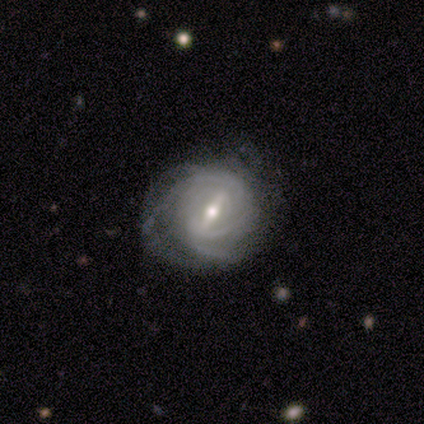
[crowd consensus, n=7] Volunteers were most divided on "spiral arm count" (4-way tie): 2: 25%, 3: 25%, 4: 25%, can't tell: 25%, 1: 0%, more than 4: 0%. More confident: edge-on disk — no (100%); spiral arms — yes (80%); spiral winding — medium (75%); smooth or featured — featured or disk (71%); bulge size — moderate (60%); bar — strong (60%); merging — none (50%).